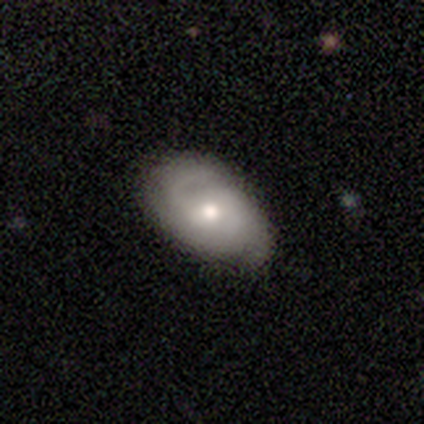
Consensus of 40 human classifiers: smooth-or-featured: featured or disk: 68% | smooth: 30% | star or artifact: 2%
  disk-edge-on: no: 100% | yes: 0%
    bar: no: 70% | weak: 30% | strong: 0%
    has-spiral-arms: yes: 96% | no: 4%
      spiral-winding: medium: 46% | tight: 38% | loose: 15%
      spiral-arm-count: 2: 42% | 3: 27% | can't tell: 27% | 1: 4% | 4: 0% | more than 4: 0%
    bulge-size: moderate: 81% | small: 15% | large: 4% | dominant: 0% | none: 0%
  merging: none: 77% | minor disturbance: 21% | major disturbance: 3% | merger: 0%